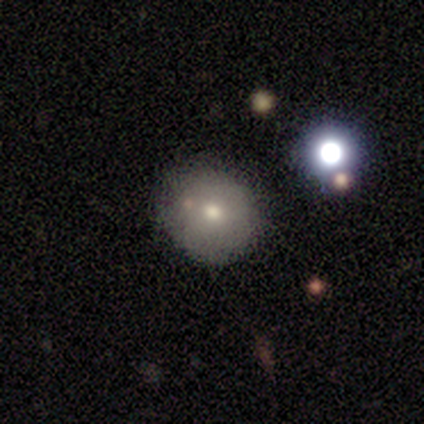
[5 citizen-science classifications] A smooth galaxy with no disk features (100%) that is round (100%).

Vote fractions:
- Smooth or featured? smooth: 100% / featured or disk: 0% / star or artifact: 0%
- How rounded? round: 100% / in between: 0% / cigar-shaped: 0%
- Merging? none: 80% / minor disturbance: 20% / major disturbance: 0% / merger: 0%